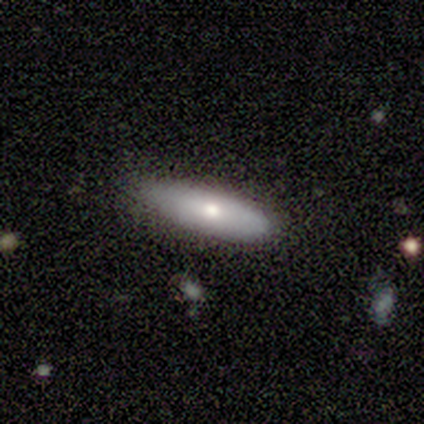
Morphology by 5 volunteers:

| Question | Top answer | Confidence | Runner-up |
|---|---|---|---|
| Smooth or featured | smooth | 60% | featured or disk (40%) |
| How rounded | cigar-shaped | 67% | in between (33%) |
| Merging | none | 100% | — |